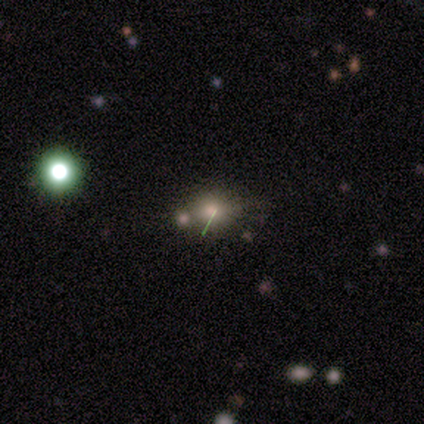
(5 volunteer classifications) Morphology: type=smooth (60%); roundness=round (67%); merging=none (67%).